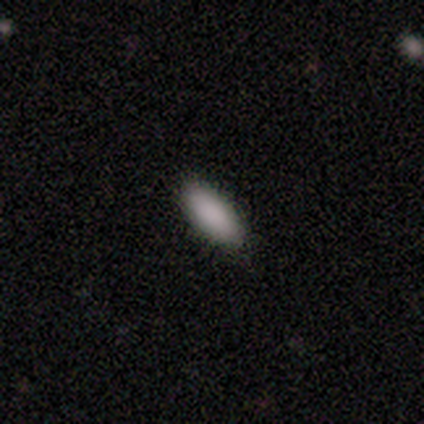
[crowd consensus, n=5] A smooth galaxy with no disk features (100%) that is in between round and cigar-shaped (80%). Merging: none (100%).